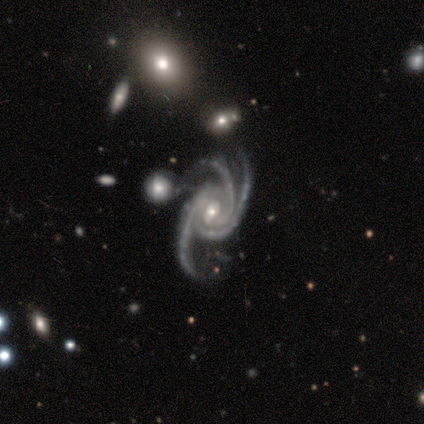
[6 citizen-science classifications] Morphology: type=featured or disk (100%); edge-on=no (100%); bar=no (67%); spiral arms=yes (100%); winding=tight (50%); arm count=3 (100%); bulge=small (67%); merging=none (33%, tied with minor disturbance).